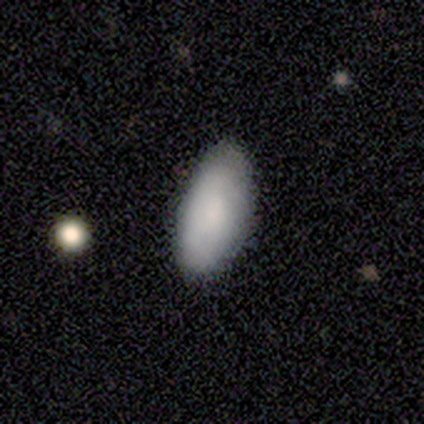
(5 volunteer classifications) This appears to be a smooth galaxy with no disk features (80%) that is in between round and cigar-shaped (75%). Merging: none (100%).